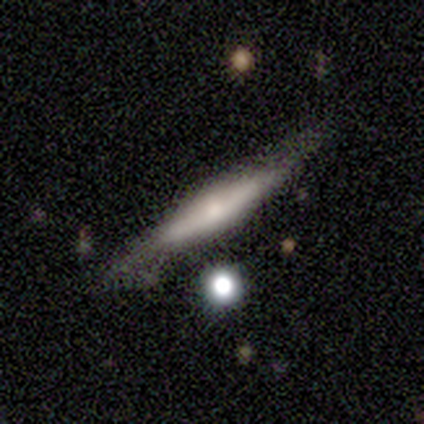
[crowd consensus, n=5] smooth_or_featured: smooth (p=0.60) [alt: featured or disk p=0.40]
how_rounded: cigar-shaped (p=1.00)
merging: none (p=0.60) [alt: minor disturbance p=0.20]